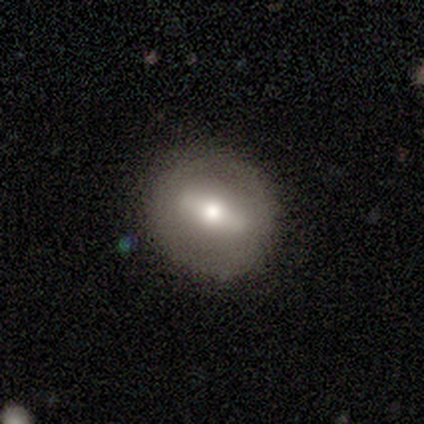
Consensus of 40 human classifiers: Smooth or featured: featured or disk — 60% (smooth — 35%)
Edge-on disk: no — 71% (yes — 29%)
Bar: strong — 82% (no — 12%)
Spiral arms: no — 88% (yes — 12%)
Bulge size: moderate — 41% (tied with small — 41%)
Merging: none — 79% (minor disturbance — 16%)